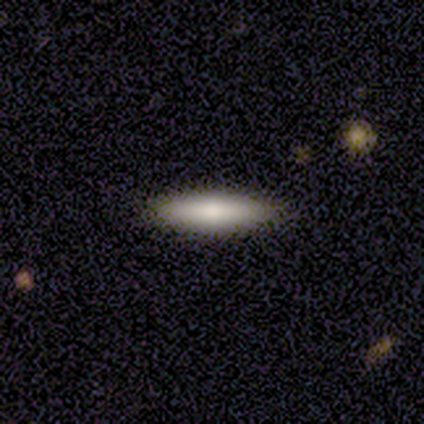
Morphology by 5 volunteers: Smooth or featured? 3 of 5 (60%) said smooth. How rounded? 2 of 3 (67%) said cigar-shaped. Merging? 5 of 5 (100%) said none.